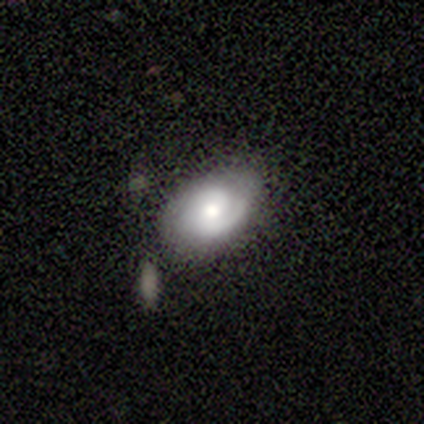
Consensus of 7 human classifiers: A featured or disk galaxy (86%) with a weak bar (67%), 1 (50%) medium (50%, tied with loose) spiral arms (100%) and a moderate central bulge (83%).

Vote fractions:
- Smooth or featured? featured or disk: 86% / smooth: 14% / star or artifact: 0%
- Edge-on disk? no: 100% / yes: 0%
- Bar? weak: 67% / no: 33% / strong: 0%
- Spiral arms? yes: 100% / no: 0%
- Spiral winding? medium: 50% (tied) / loose: 50% (tied) / tight: 0%
- Spiral arm count? 1: 50% / 2: 33% / can't tell: 17% / 3: 0% / 4: 0% / more than 4: 0%
- Bulge size? moderate: 83% / small: 17% / dominant: 0% / large: 0% / none: 0%
- Merging? none: 57% / minor disturbance: 29% / major disturbance: 14% / merger: 0%